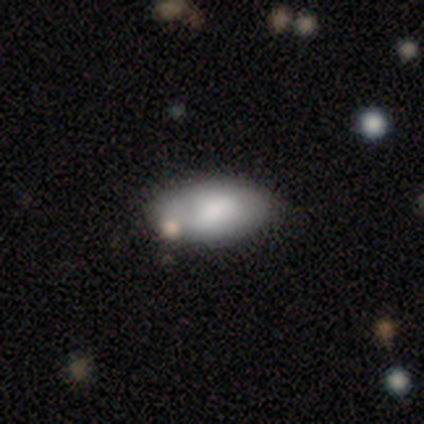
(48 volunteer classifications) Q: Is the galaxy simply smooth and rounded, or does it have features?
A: smooth — 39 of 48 (81%).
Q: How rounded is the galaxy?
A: in between — 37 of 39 (95%).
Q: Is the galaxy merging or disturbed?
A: none — 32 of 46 (70%).